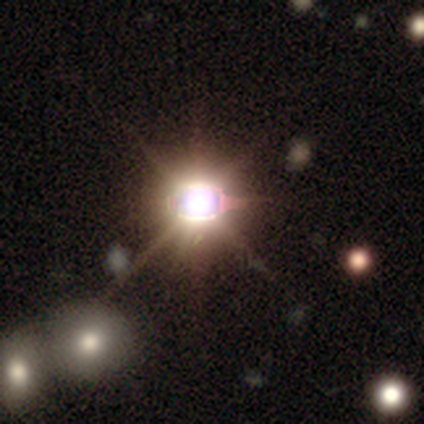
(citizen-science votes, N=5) A star or artifact, not a galaxy (100%).

Vote fractions:
- Smooth or featured? star or artifact: 100% / smooth: 0% / featured or disk: 0%